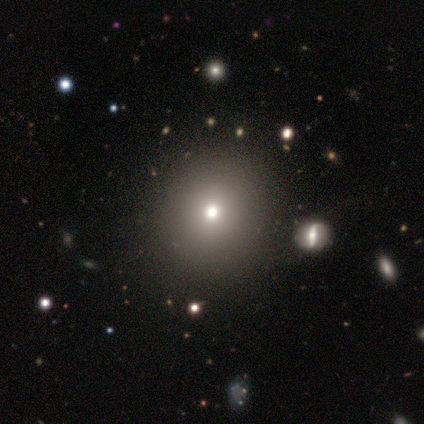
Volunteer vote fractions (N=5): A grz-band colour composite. It shows a smooth galaxy with no disk features (60%) that is round (67%). Merging: none (100%).